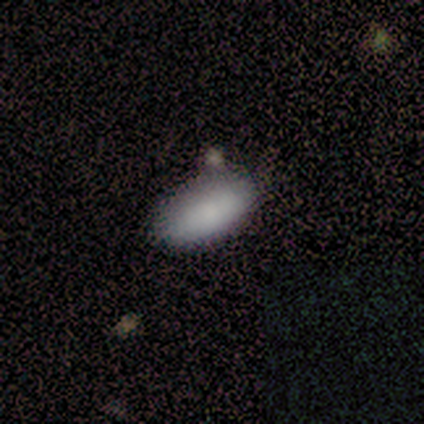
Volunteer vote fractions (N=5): smooth_or_featured: smooth (p=1.00)
how_rounded: in between (p=0.80) [alt: cigar-shaped p=0.20]
merging: none (p=0.60) [alt: minor disturbance p=0.40]